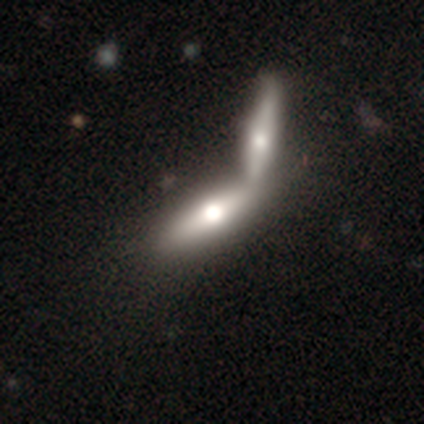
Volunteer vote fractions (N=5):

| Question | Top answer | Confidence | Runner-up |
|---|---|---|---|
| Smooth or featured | smooth | 100% | — |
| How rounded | cigar-shaped | 80% | in between (20%) |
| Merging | merger | 80% | none (20%) |